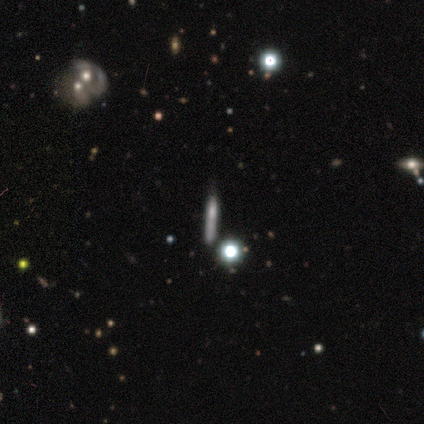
This is marginally a featured or disk galaxy (42%). It is clearly viewed edge-on (88%). Edge-on bulge: clearly none (81%). Merging: likely none (67%).